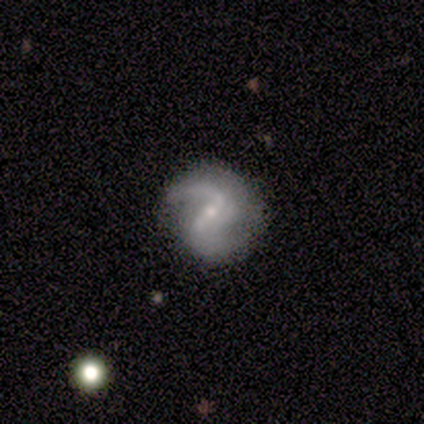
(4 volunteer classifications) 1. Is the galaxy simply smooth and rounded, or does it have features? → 100% featured or disk, 0% smooth, 0% star or artifact.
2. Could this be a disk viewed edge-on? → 100% no, 0% yes.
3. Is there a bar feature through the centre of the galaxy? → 50% weak, 25% strong, 25% no.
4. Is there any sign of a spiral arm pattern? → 100% yes, 0% no.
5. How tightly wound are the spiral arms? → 50% tight (tied), 50% medium (tied), 0% loose.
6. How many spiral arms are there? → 100% 2, 0% 1, 0% 3, 0% 4, 0% more than 4, 0% can't tell.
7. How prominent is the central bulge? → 50% moderate, 25% small, 25% none, 0% dominant, 0% large.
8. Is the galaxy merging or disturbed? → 75% none, 25% major disturbance, 0% minor disturbance, 0% merger.